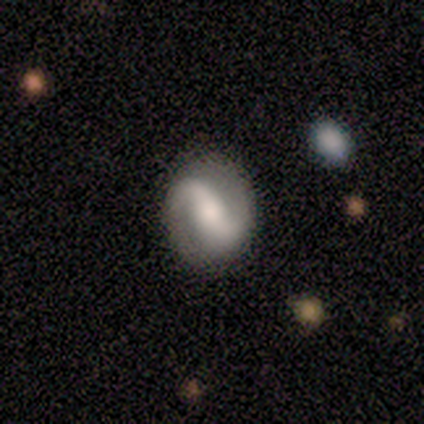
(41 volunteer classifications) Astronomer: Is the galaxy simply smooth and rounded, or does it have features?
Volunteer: featured or disk — 93%.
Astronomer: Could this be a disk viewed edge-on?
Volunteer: no — 100%.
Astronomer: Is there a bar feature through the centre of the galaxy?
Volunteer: strong — 39% (runner-up: weak, 34%).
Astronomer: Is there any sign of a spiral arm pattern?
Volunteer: yes — 89%.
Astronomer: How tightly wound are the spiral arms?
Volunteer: loose — 47% (runner-up: medium, 29%).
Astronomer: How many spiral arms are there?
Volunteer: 2 — 97%.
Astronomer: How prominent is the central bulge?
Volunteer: moderate — 50% (runner-up: large, 32%).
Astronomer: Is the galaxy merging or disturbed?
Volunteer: none — 82%.